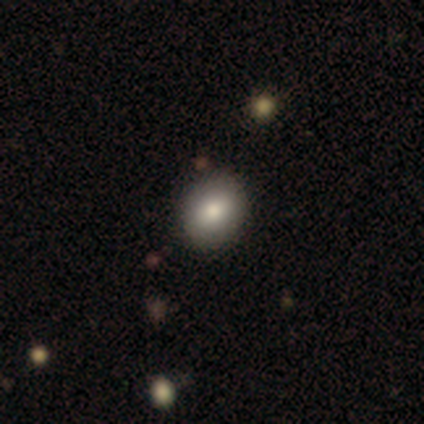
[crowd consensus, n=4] A star or artifact, not a galaxy (50%).

Vote fractions:
- Smooth or featured? star or artifact: 50% / smooth: 25% / featured or disk: 25%